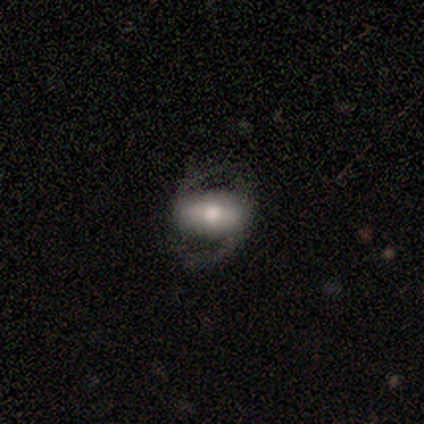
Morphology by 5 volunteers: Q: Smooth or featured?
A: featured or disk (80%); runner-up: smooth (20%)
Q: Edge-on disk?
A: no (100%)
Q: Bar?
A: strong (50%); runner-up: weak (25%)
Q: Spiral arms?
A: yes (100%)
Q: Spiral winding?
A: loose (75%); runner-up: medium (25%)
Q: Spiral arm count?
A: 2 (100%)
Q: Bulge size?
A: moderate (50%); runner-up: large (25%)
Q: Merging?
A: none (40%); tied with: minor disturbance (40%)